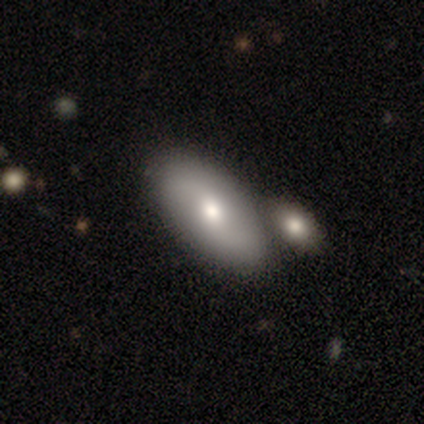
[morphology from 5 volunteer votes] smooth_or_featured: featured or disk (p=0.80) [alt: smooth p=0.20]
disk_edge_on: no (p=1.00)
bar: weak (p=0.75) [alt: no p=0.25]
has_spiral_arms: yes (p=1.00)
spiral_winding: tight (p=0.50) [alt: medium p=0.25]
spiral_arm_count: 2 (p=1.00)
bulge_size: moderate (p=0.50) [tied with: small p=0.50]
merging: merger (p=0.60) [alt: none p=0.40]